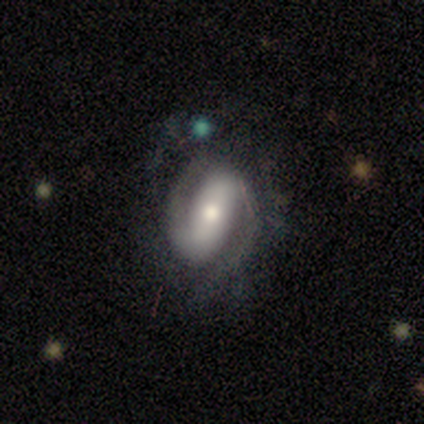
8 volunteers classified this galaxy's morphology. Volunteers were most divided on "spiral winding": medium: 62%, tight: 25%, loose: 12%. More confident: smooth or featured — featured or disk (100%); edge-on disk — no (100%); spiral arms — yes (100%); spiral arm count — 2 (100%); bar — strong (75%); bulge size — moderate (75%); merging — none (62%).